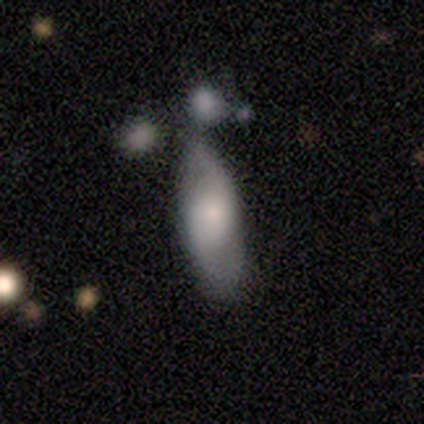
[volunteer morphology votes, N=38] A featured or disk galaxy (47%) with no bar (69%), 2 (70%) medium (50%) spiral arms (62%) and a large central bulge (31%, tied with moderate and small). Merging: none (53%).